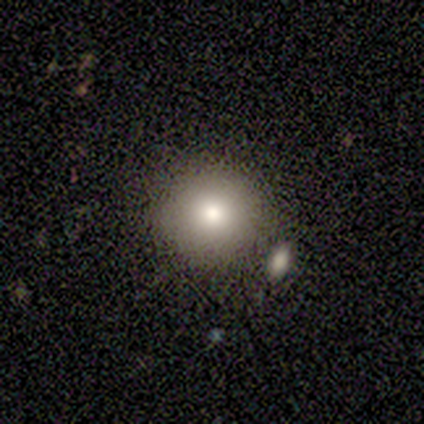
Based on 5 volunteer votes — Overall: smooth (80%). How rounded: round (100%). Merging: none (100%).